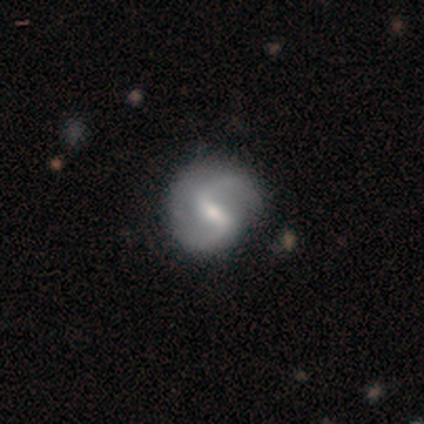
Volunteers were most divided on "spiral winding" (2-way tie): medium: 50%, loose: 50%, tight: 0%. More confident: edge-on disk — no (100%); spiral arms — yes (100%); bulge size — moderate (100%); smooth or featured — featured or disk (80%); bar — strong (75%); spiral arm count — 2 (75%); merging — none (60%).